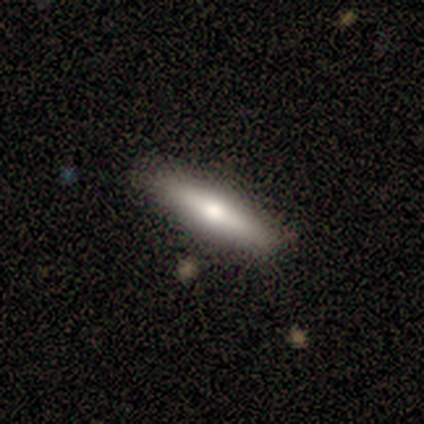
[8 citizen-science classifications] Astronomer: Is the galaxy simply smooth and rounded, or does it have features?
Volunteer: smooth — 50%, tied with featured or disk at 50%.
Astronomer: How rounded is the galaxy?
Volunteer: cigar-shaped — 100%.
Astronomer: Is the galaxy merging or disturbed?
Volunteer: none — 75%.